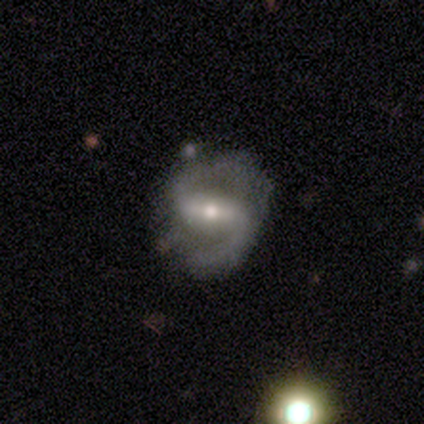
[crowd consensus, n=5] Smooth or featured: featured or disk — 80% (star or artifact — 20%)
Edge-on disk: no — 100%
Bar: strong — 100%
Spiral arms: yes — 100%
Spiral winding: medium — 75% (loose — 25%)
Spiral arm count: 2 — 100%
Bulge size: moderate — 50% (dominant — 25%)
Merging: none — 50% (tied with minor disturbance — 50%)